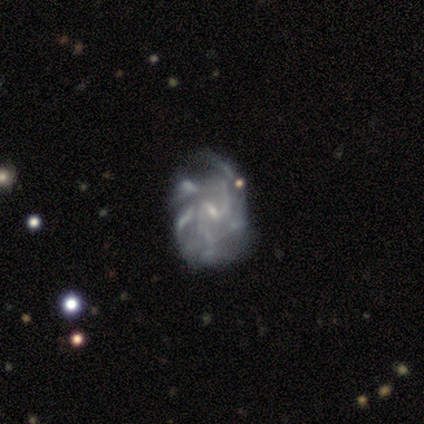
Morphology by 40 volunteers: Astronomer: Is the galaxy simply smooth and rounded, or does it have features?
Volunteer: featured or disk — 95%.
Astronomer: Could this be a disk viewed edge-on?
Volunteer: no — 100%.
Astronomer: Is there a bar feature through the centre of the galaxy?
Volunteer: weak — 63%.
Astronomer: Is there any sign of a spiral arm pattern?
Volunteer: yes — 82%.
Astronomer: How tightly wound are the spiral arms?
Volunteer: medium — 42% (runner-up: loose, 32%).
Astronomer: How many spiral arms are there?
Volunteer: can't tell — 45% (runner-up: more than 4, 23%).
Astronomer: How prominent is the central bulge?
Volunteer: small — 74%.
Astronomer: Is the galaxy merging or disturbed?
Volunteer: none — 32% (runner-up: minor disturbance, 22%).